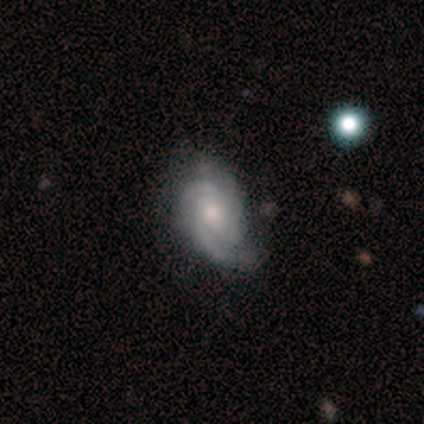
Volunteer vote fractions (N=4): Smooth or featured?
  - featured or disk: 50% *
  - smooth: 25%
  - star or artifact: 25%
Edge-on disk?
  - no: 100% *
  - yes: 0%
Bar?
  - weak: 50% * (tied)
  - no: 50% * (tied)
  - strong: 0%
Spiral arms?
  - yes: 100% *
  - no: 0%
Spiral winding?
  - tight: 50% * (tied)
  - medium: 50% * (tied)
  - loose: 0%
Spiral arm count?
  - 2: 50% * (tied)
  - 3: 50% * (tied)
  - 1: 0%
  - 4: 0%
  - more than 4: 0%
  - can't tell: 0%
Bulge size?
  - moderate: 50% * (tied)
  - small: 50% * (tied)
  - dominant: 0%
  - large: 0%
  - none: 0%
Merging?
  - none: 100% *
  - minor disturbance: 0%
  - major disturbance: 0%
  - merger: 0%